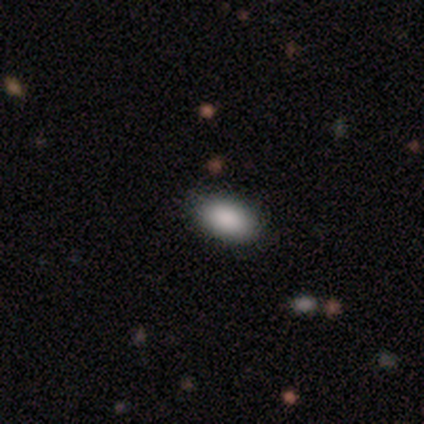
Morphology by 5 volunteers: Smooth or featured? 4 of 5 (80%) said smooth. How rounded? 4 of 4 (100%) said in between. Merging? 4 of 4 (100%) said none.